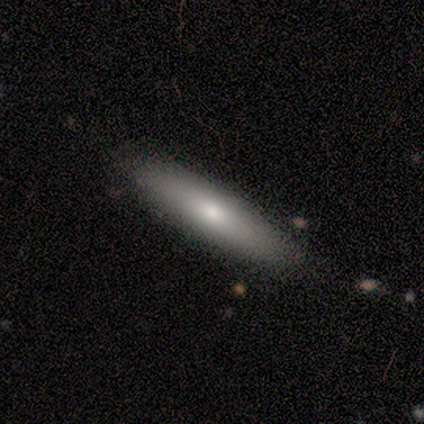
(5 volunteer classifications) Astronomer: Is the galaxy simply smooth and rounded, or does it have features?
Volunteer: smooth — 100%.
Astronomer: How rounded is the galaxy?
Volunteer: cigar-shaped — 100%.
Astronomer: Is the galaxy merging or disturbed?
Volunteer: none — 100%.